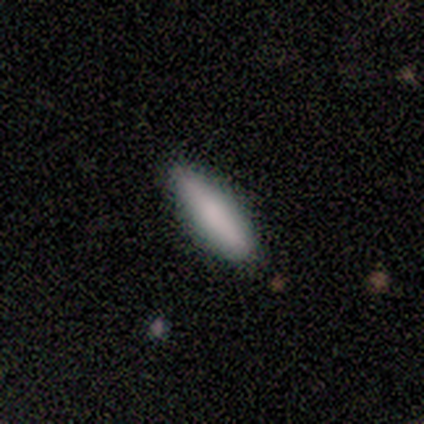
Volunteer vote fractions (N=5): smooth 80%, featured or disk 20%, star or artifact 0%. Down the decision tree: how rounded — cigar-shaped (100%); merging — none (100%).